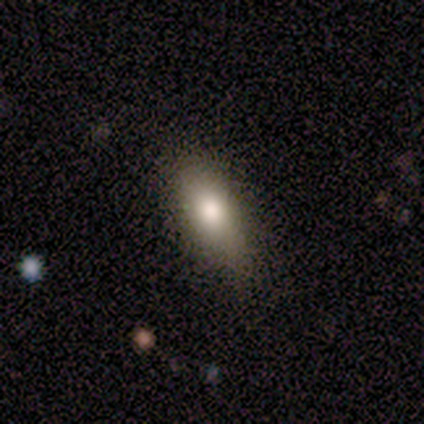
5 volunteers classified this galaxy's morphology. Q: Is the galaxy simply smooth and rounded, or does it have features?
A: smooth — 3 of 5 (60%).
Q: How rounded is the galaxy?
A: in between — 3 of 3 (100%).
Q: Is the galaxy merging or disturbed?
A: none — 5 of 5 (100%).